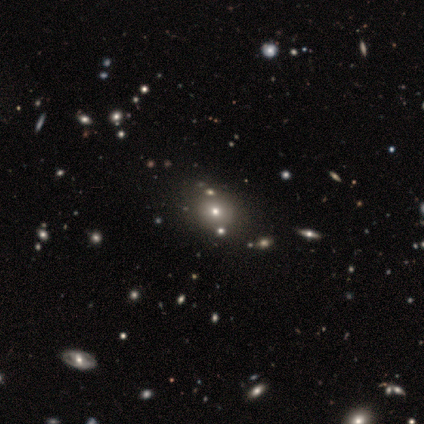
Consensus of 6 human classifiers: Smooth or featured? 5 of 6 (83%) said smooth. How rounded? 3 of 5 (60%) said round. Merging? 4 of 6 (67%) said none.